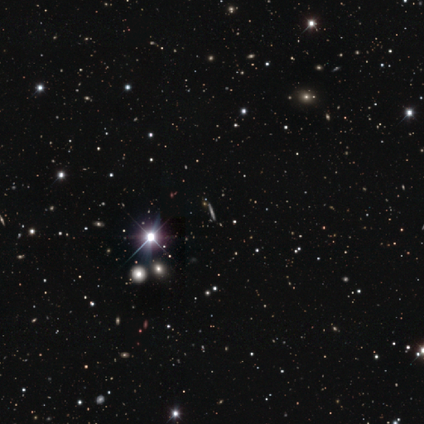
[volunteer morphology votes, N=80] smooth-or-featured: star or artifact: 56% | featured or disk: 34% | smooth: 10%